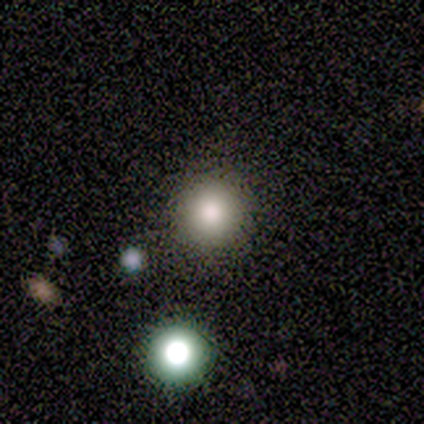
Smooth or featured: smooth — 60% (featured or disk — 20%)
How rounded: round — 100%
Merging: none — 100%